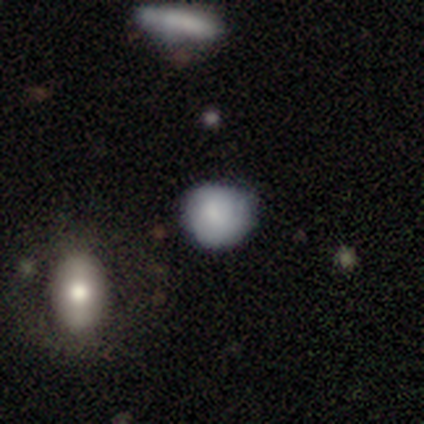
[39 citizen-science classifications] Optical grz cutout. It shows a smooth galaxy with no disk features (74%) that is round (76%). Merging: none (71%).